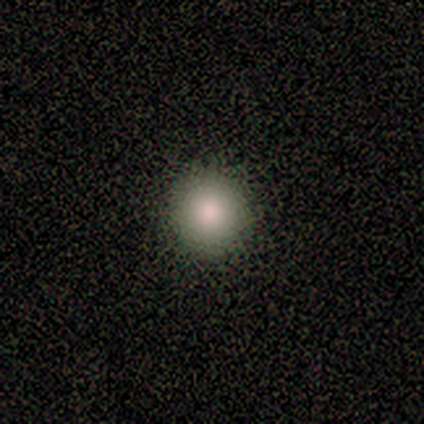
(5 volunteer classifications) Smooth or featured? smooth (80%)
How rounded? round (100%)
Merging? none (100%)